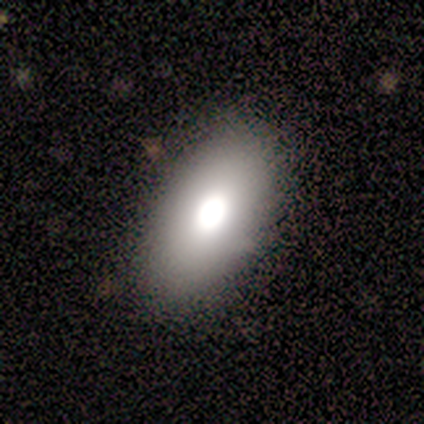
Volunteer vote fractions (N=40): A smooth galaxy with no disk features (57%) that is in between round and cigar-shaped (100%). Merging: none (83%).